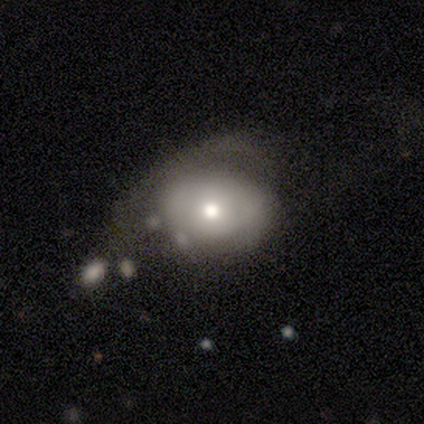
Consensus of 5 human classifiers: Smooth or featured? 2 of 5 (40%, tied with star or artifact) said featured or disk. Edge-on disk? 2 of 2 (100%) said no. Bar? 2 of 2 (100%) said no. Spiral arms? 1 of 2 (50%, tied with no) said yes. Spiral winding? 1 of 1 (100%) said tight. Spiral arm count? 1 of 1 (100%) said 2. Bulge size? 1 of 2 (50%, tied with small) said moderate. Merging? 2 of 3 (67%) said major disturbance.